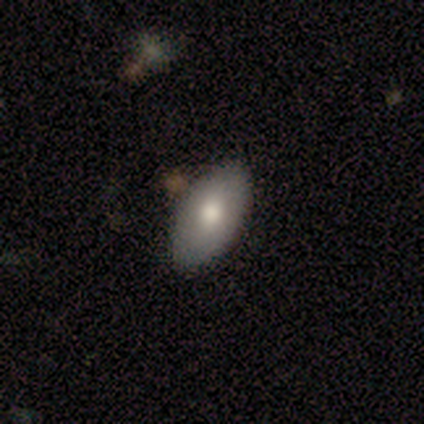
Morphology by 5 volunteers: A smooth galaxy with no disk features (80%) that is in between round and cigar-shaped (100%). Merging: none (80%).